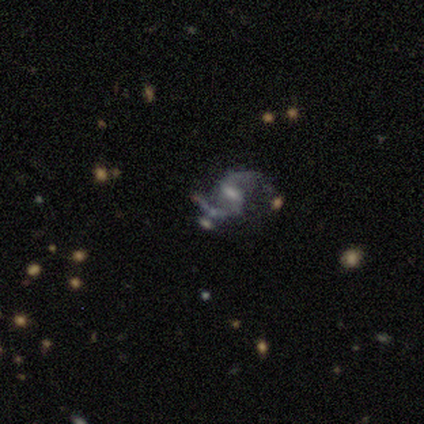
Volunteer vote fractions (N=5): Smooth or featured? featured or disk (80%)
Edge-on disk? no (100%)
Bar? strong (50%, tied with weak)
Spiral arms? yes (100%)
Spiral winding? loose (75%)
Spiral arm count? 2 (100%)
Bulge size? moderate (100%)
Merging? none (75%)